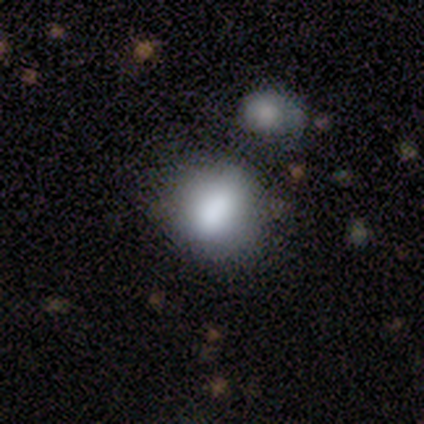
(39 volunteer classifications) smooth 85%, featured or disk 10%, star or artifact 5%. Down the decision tree: how rounded — round (70%); merging — none (59%).